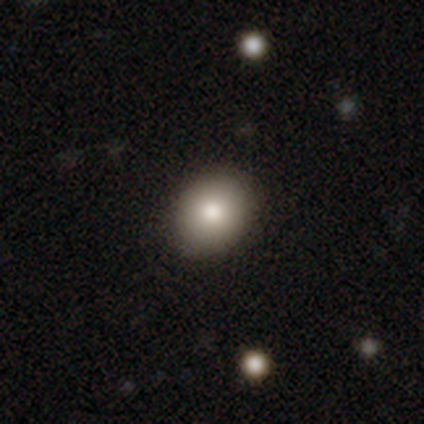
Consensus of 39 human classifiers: Overall: smooth (90%). How rounded: round (66%; in between 34%). Merging: none (97%).